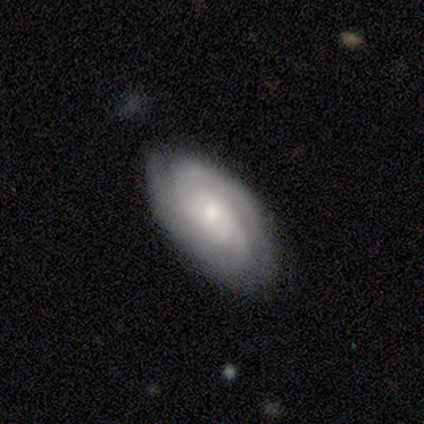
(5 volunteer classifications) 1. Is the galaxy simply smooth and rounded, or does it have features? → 80% featured or disk, 20% smooth, 0% star or artifact.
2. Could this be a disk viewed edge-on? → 100% no, 0% yes.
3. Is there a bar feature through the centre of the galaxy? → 75% no, 25% weak, 0% strong.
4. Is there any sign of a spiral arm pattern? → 75% yes, 25% no.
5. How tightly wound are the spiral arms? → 67% tight, 33% medium, 0% loose.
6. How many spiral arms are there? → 67% 2, 33% 4, 0% 1, 0% 3, 0% more than 4, 0% can't tell.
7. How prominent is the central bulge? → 75% small, 25% moderate, 0% dominant, 0% large, 0% none.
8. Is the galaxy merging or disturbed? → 100% none, 0% minor disturbance, 0% major disturbance, 0% merger.